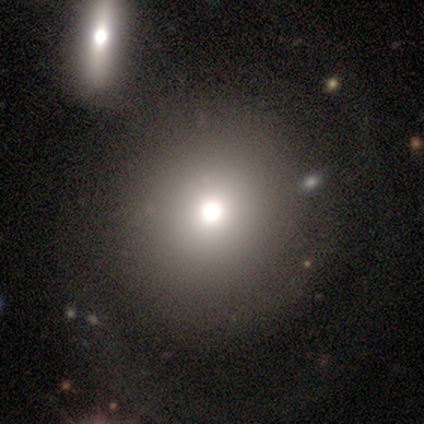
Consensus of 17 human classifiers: This is likely a smooth galaxy (65%). How rounded: likely round (73%). Merging: marginally merger (31%).